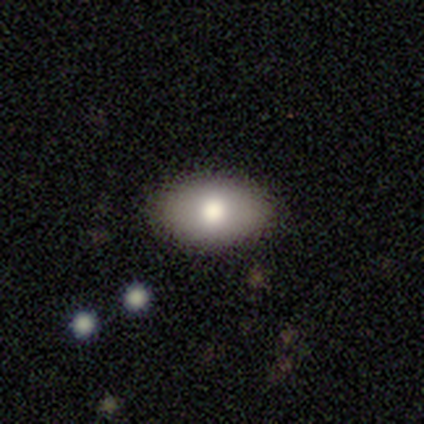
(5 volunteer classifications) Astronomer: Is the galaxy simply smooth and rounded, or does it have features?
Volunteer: smooth — 80%.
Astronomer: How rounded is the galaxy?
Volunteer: in between — 100%.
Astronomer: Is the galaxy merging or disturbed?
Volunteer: none — 100%.